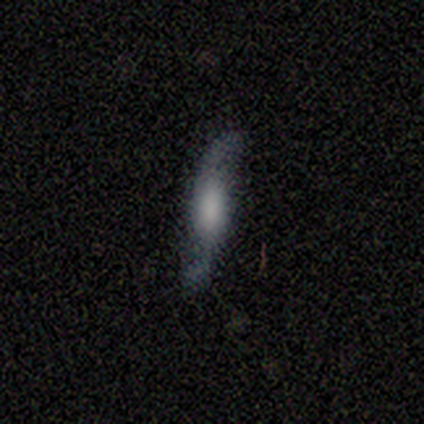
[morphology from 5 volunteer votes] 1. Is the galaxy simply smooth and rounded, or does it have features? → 80% featured or disk, 20% smooth, 0% star or artifact.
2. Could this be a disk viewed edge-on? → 75% no, 25% yes.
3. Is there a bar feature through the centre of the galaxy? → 100% no, 0% strong, 0% weak.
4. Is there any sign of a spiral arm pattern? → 100% yes, 0% no.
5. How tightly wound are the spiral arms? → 100% loose, 0% tight, 0% medium.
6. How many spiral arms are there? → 100% 2, 0% 1, 0% 3, 0% 4, 0% more than 4, 0% can't tell.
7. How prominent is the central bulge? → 100% moderate, 0% dominant, 0% large, 0% small, 0% none.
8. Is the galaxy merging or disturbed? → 60% none, 40% major disturbance, 0% minor disturbance, 0% merger.